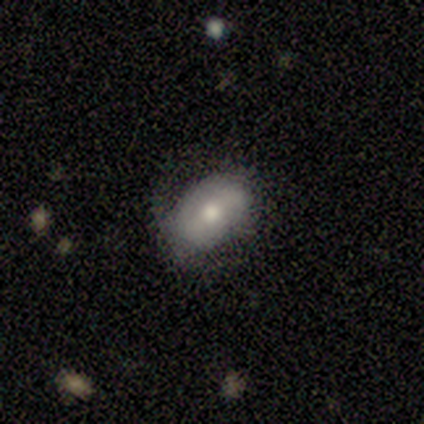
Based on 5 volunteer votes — smooth-or-featured: smooth: 80% | star or artifact: 20% | featured or disk: 0%
  how-rounded: in between: 75% | round: 25% | cigar-shaped: 0%
  merging: none: 100% | minor disturbance: 0% | major disturbance: 0% | merger: 0%